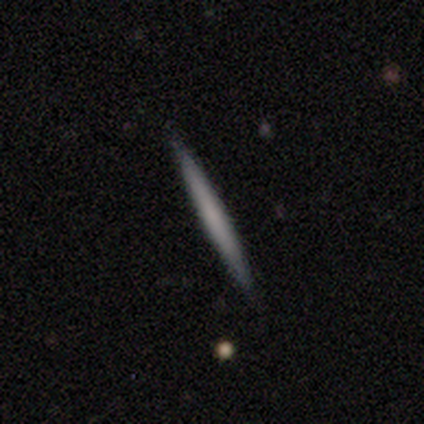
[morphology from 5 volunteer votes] Overall: smooth (60%; featured or disk 40%). How rounded: cigar-shaped (100%). Merging: none (100%).